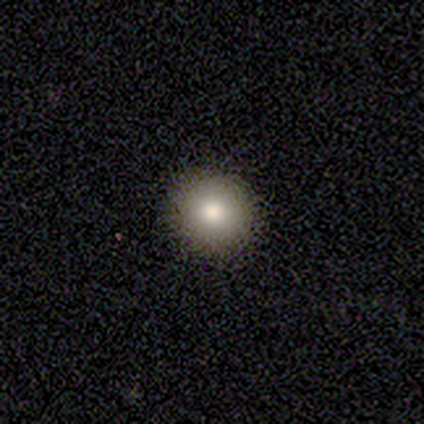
Overall: smooth (100%). How rounded: round (100%). Merging: none (100%).